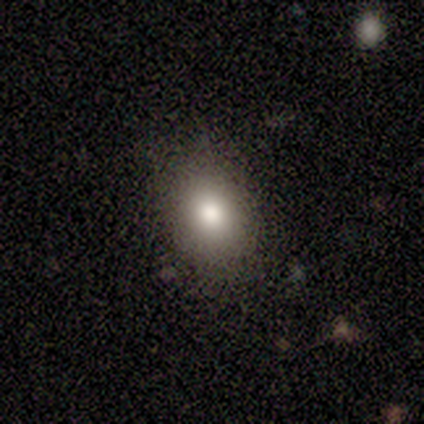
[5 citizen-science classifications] This is clearly a smooth galaxy (100%). How rounded: likely in between (60%). Merging: clearly none (80%).